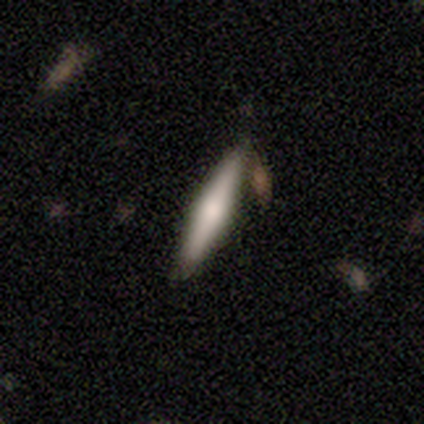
Volunteers were most divided on "merging": none: 80%, merger: 20%, minor disturbance: 0%, major disturbance: 0%. More confident: smooth or featured — smooth (100%); how rounded — cigar-shaped (100%).